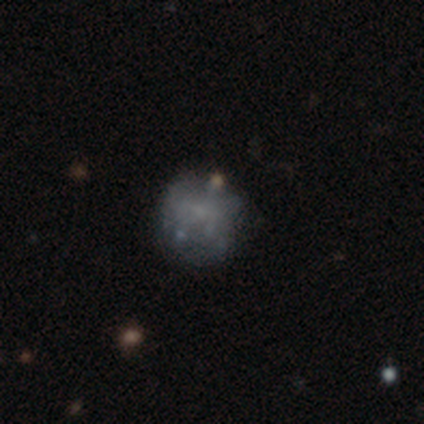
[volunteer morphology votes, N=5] A smooth galaxy with no disk features (60%) that is round (100%). Merging: minor disturbance (60%).